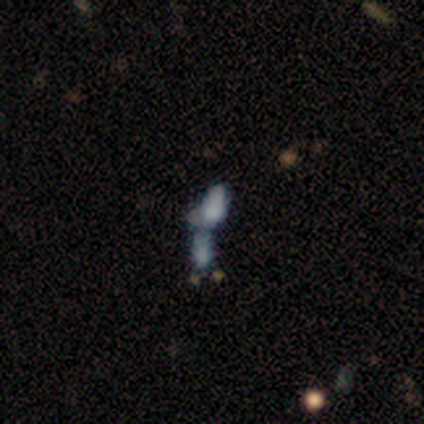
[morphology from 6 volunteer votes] A smooth galaxy with no disk features (83%) that is in between round and cigar-shaped (60%). Merging: merger (83%).